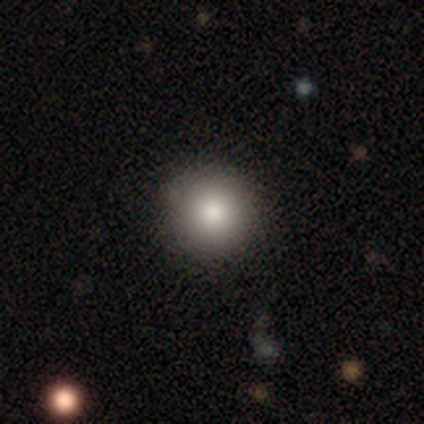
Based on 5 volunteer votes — Smooth or featured?
  - smooth: 60% *
  - featured or disk: 40%
  - star or artifact: 0%
How rounded?
  - round: 100% *
  - in between: 0%
  - cigar-shaped: 0%
Merging?
  - none: 80% *
  - minor disturbance: 20%
  - major disturbance: 0%
  - merger: 0%